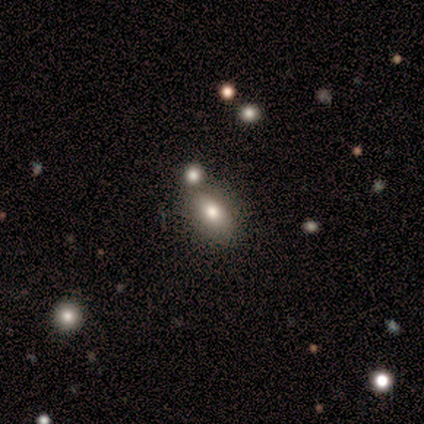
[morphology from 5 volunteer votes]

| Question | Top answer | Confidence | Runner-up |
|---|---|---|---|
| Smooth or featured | smooth | 60% | featured or disk (20%) |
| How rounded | in between | 100% | — |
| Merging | minor disturbance | 50% | none (25%) |